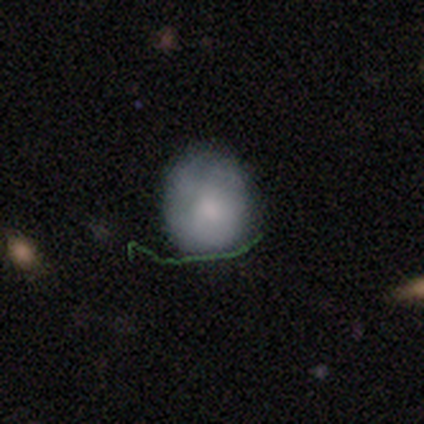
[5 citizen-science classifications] Q: Smooth or featured?
A: smooth (40%); tied with: featured or disk (40%)
Q: How rounded?
A: round (50%); tied with: in between (50%)
Q: Merging?
A: none (100%)